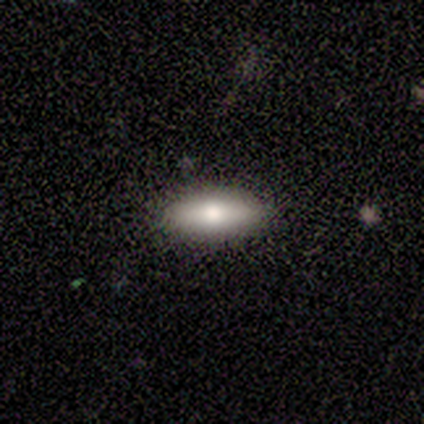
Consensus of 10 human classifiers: Smooth or featured? 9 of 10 (90%) said smooth. How rounded? 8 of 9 (89%) said in between. Merging? 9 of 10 (90%) said none.